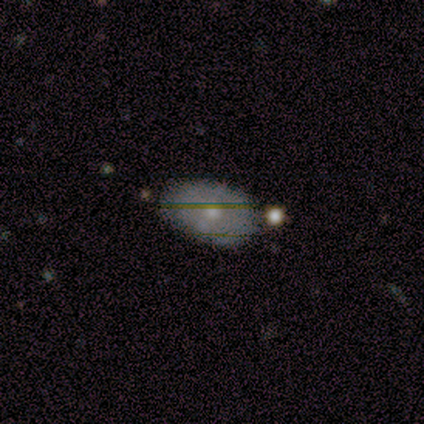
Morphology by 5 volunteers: smooth_or_featured: smooth (p=0.60) [alt: featured or disk p=0.40]
how_rounded: in between (p=1.00)
merging: none (p=1.00)